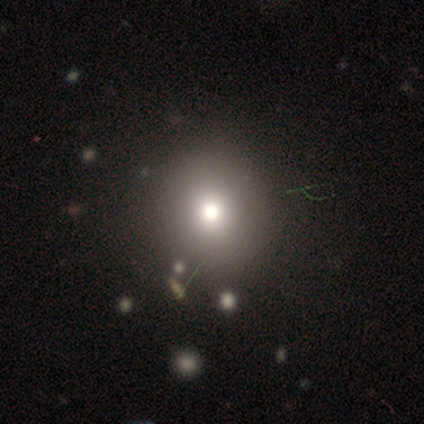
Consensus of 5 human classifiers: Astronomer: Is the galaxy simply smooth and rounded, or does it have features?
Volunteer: smooth — 40%, tied with featured or disk at 40%.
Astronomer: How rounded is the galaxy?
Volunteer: round — 100%.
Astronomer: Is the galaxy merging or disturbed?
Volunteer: none — 100%.